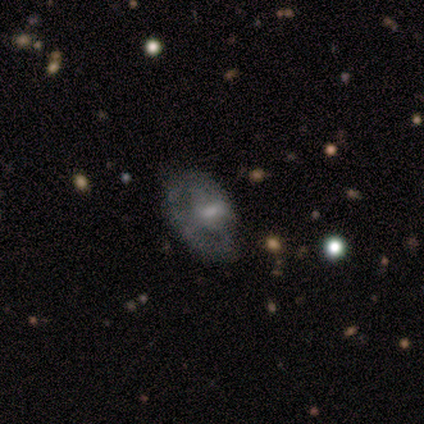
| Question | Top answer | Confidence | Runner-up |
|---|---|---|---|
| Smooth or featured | featured or disk | 60% | smooth (20%) |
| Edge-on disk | no | 100% | — |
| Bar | weak | 67% | no (33%) |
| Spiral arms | yes | 67% | no (33%) |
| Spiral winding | tight | 50% | tied: medium (50%) |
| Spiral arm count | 1 | 50% | tied: 2 (50%) |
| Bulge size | small | 67% | moderate (33%) |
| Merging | none | 100% | — |